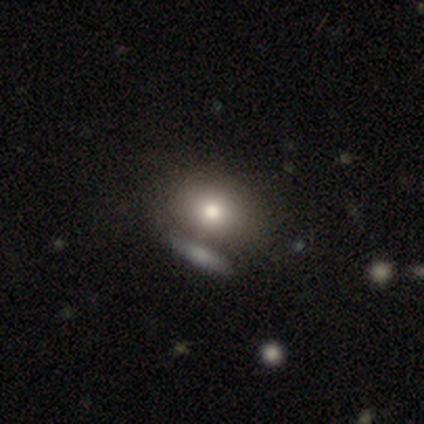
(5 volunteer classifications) Smooth or featured: smooth — 100%
How rounded: in between — 60% (round — 40%)
Merging: none — 60% (minor disturbance — 20%)